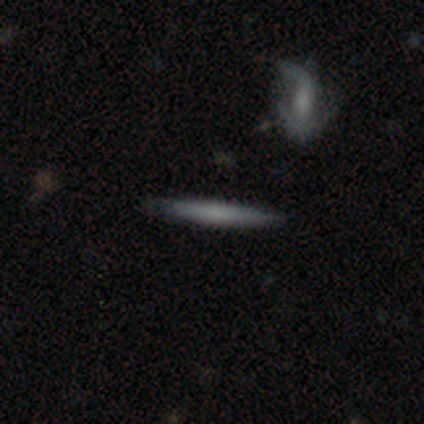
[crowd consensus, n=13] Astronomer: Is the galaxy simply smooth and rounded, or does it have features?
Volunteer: smooth — 46% (runner-up: featured or disk, 38%).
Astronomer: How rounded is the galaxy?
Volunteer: cigar-shaped — 100%.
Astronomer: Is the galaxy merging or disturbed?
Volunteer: none — 73%.